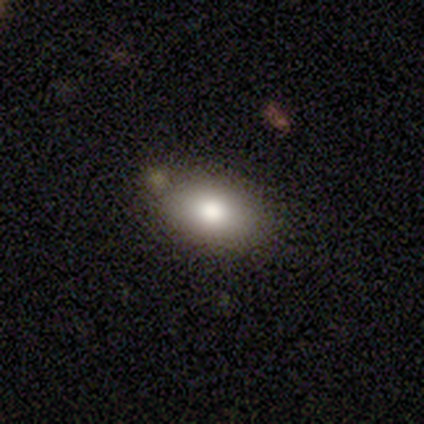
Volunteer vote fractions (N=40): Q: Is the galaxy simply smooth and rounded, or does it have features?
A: smooth — 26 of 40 (65%).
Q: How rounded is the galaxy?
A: in between — 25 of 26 (96%).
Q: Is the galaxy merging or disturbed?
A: none — 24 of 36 (67%).